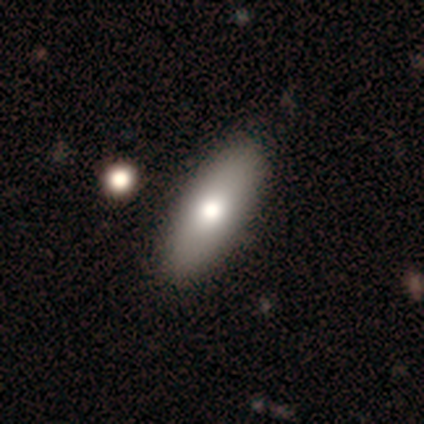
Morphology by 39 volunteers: Smooth or featured?
  - smooth: 74% *
  - featured or disk: 23%
  - star or artifact: 3%
How rounded?
  - in between: 86% *
  - cigar-shaped: 14%
  - round: 0%
Merging?
  - none: 74% *
  - minor disturbance: 3%
  - major disturbance: 3%
  - merger: 3%